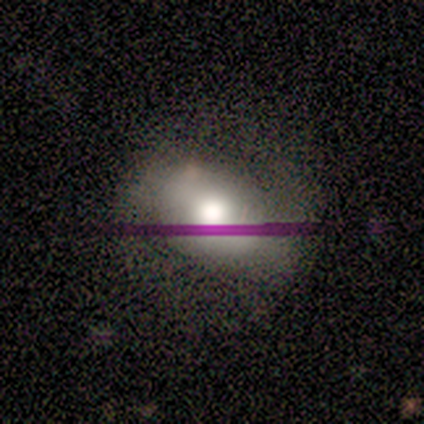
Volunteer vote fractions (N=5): A smooth galaxy with no disk features (40%, tied with star or artifact) that is in between round and cigar-shaped (100%).

Vote fractions:
- Smooth or featured? smooth: 40% (tied) / star or artifact: 40% (tied) / featured or disk: 20%
- How rounded? in between: 100% / round: 0% / cigar-shaped: 0%
- Merging? none: 100% / minor disturbance: 0% / major disturbance: 0% / merger: 0%